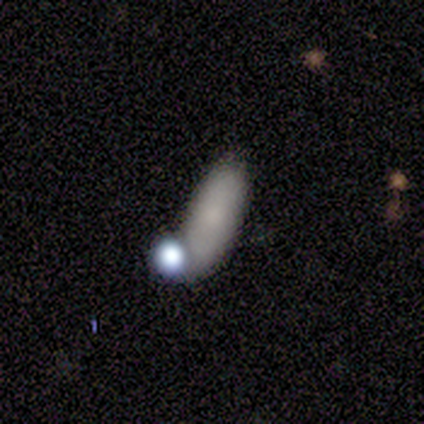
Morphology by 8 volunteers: Smooth or featured?
  - smooth: 62% *
  - star or artifact: 25%
  - featured or disk: 12%
How rounded?
  - in between: 100% *
  - round: 0%
  - cigar-shaped: 0%
Merging?
  - none: 67% *
  - minor disturbance: 33%
  - major disturbance: 0%
  - merger: 0%